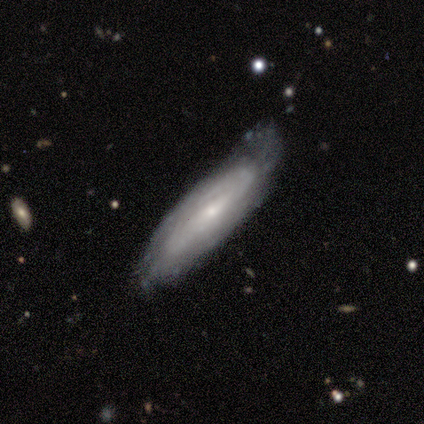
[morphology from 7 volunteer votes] A featured or disk galaxy (100%) with no bar (50%), 2 (40%, tied with can't tell) tight (40%, tied with loose) spiral arms (83%) and a small central bulge (67%). Merging: none (43%).